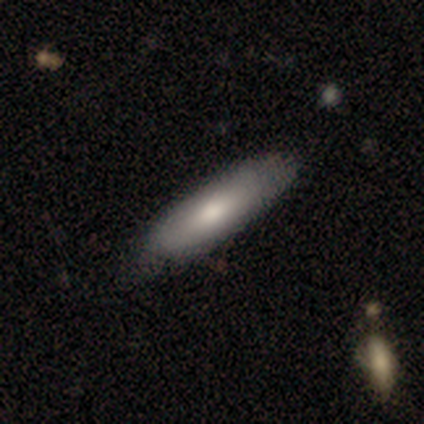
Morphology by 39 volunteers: Volunteers were most divided on "how rounded": in between: 52%, cigar-shaped: 48%, round: 0%. Remaining: smooth or featured — smooth (59%); merging — none (39%).